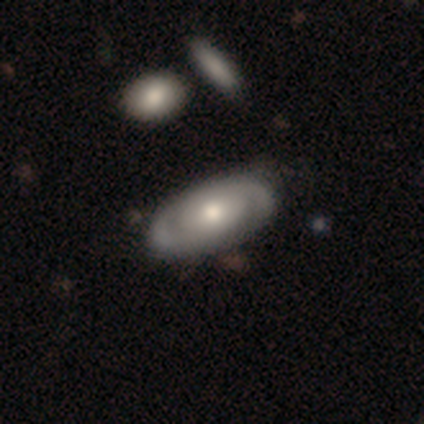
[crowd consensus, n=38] Volunteers were most divided on "smooth or featured": featured or disk: 53%, smooth: 47%, star or artifact: 0%. Remaining: edge-on disk — no (95%); bar — no (79%); spiral winding — medium (67%); spiral arm count — 2 (67%); spiral arms — yes (63%); bulge size — moderate (63%); merging — none (47%).